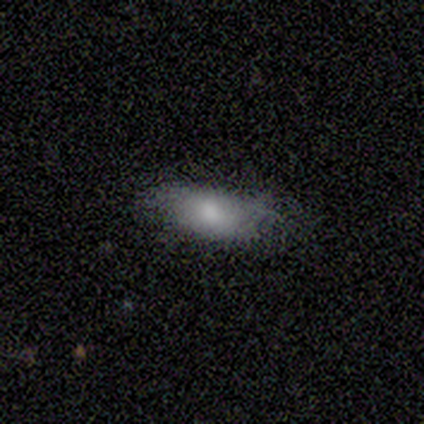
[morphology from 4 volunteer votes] type=featured or disk (50%); edge-on=no (100%); bar=no (100%); spiral arms=no (100%); bulge=moderate (100%); merging=none (67%).